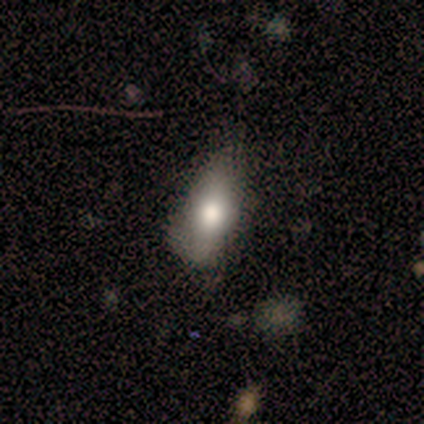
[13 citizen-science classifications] This is clearly a smooth galaxy (85%). How rounded: clearly in between (91%). Merging: possibly minor disturbance (54%).